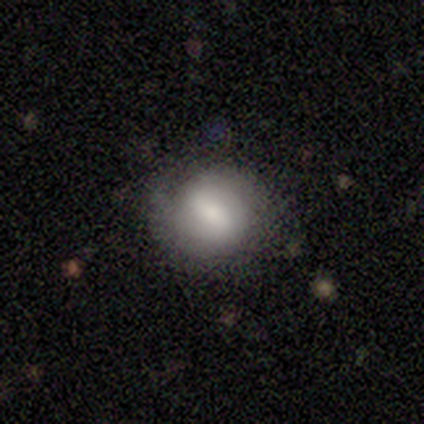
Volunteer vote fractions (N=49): This appears to be a smooth galaxy with no disk features (55%) that is round (81%). Merging: none (52%).